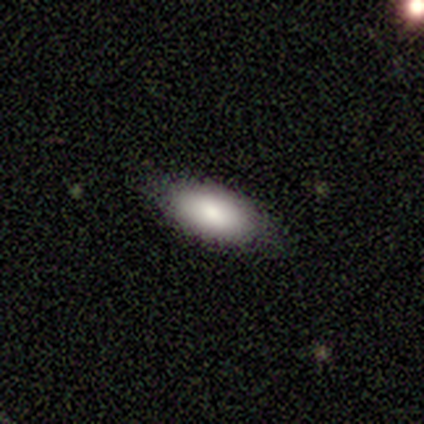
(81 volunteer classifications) Smooth or featured: smooth — 90% (featured or disk — 7%)
How rounded: in between — 90% (cigar-shaped — 5%)
Merging: none — 61% (minor disturbance — 8%)